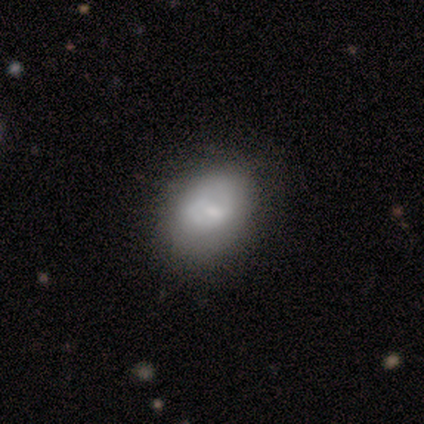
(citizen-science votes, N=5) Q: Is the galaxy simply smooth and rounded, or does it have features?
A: smooth — 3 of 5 (60%).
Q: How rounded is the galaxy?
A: in between — 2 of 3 (67%).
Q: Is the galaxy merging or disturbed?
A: none — 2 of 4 (50%, tied with major disturbance).